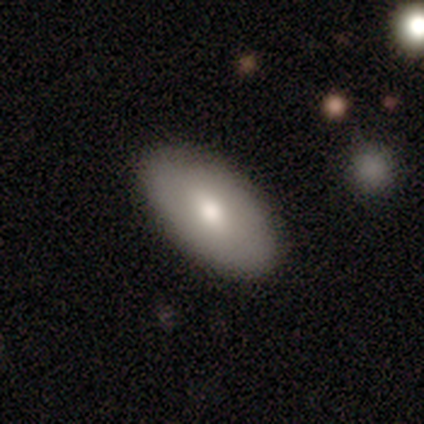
Smooth or featured: smooth — 40% (tied with featured or disk — 40%)
How rounded: in between — 100%
Merging: none — 100%